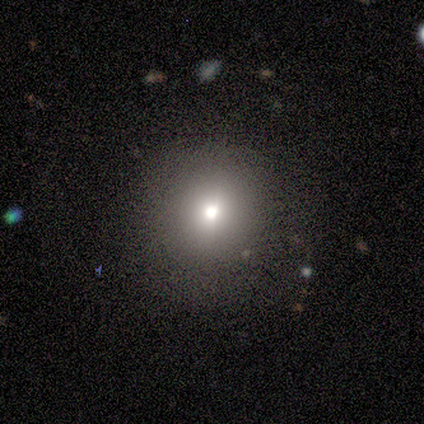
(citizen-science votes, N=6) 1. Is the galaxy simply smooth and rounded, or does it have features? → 50% smooth, 33% featured or disk, 17% star or artifact.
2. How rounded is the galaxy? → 100% round, 0% in between, 0% cigar-shaped.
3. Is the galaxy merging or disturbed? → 80% none, 20% merger, 0% minor disturbance, 0% major disturbance.